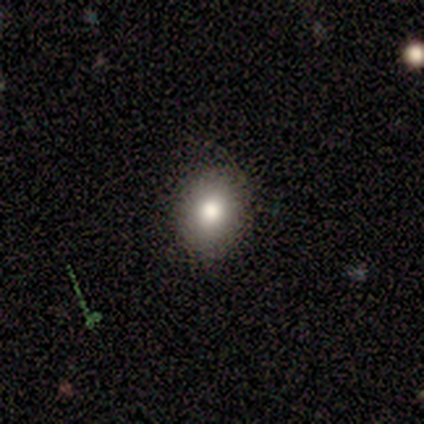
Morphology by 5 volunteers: This is likely a smooth galaxy (60%). How rounded: clearly round (100%). Merging: clearly none (80%).